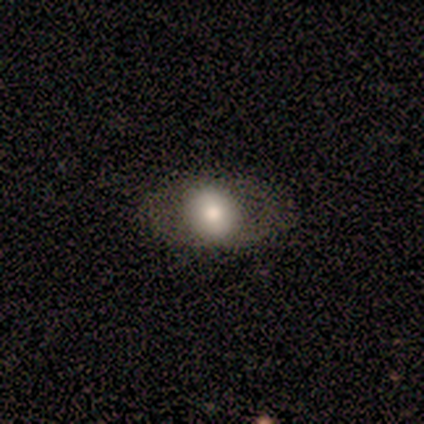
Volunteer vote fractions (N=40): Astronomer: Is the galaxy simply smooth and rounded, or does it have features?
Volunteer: smooth — 70%.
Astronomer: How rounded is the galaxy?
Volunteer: in between — 79%.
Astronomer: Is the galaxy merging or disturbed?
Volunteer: none — 63%.